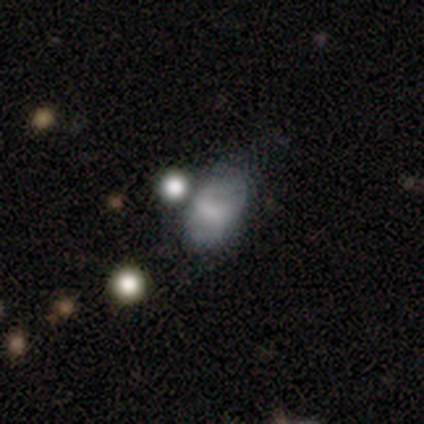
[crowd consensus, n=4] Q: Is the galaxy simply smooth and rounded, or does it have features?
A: smooth — 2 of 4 (50%, tied with featured or disk).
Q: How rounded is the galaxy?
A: in between — 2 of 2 (100%).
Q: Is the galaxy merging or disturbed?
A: none — 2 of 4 (50%, tied with minor disturbance).